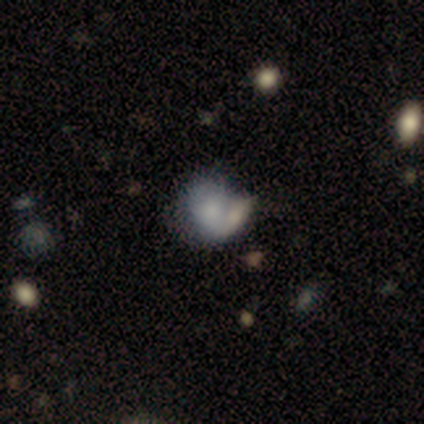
Smooth or featured? 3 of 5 (60%) said smooth. How rounded? 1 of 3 (33%, tied with in between and cigar-shaped) said round. Merging? 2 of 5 (40%, tied with merger) said none.